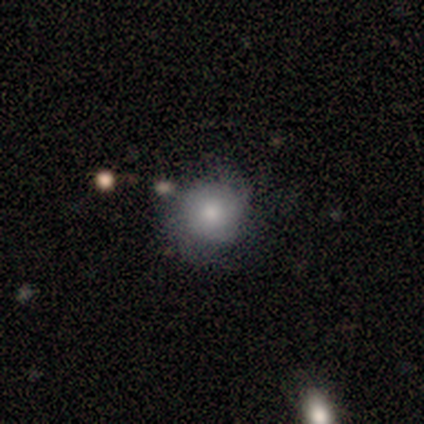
smooth 75%, featured or disk 12%, star or artifact 12%. Down the decision tree: how rounded — round (67%); merging — none (57%).